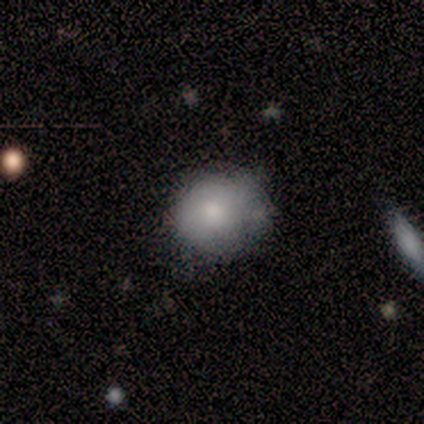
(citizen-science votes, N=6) Q: Smooth or featured?
A: smooth (83%); runner-up: featured or disk (17%)
Q: How rounded?
A: round (60%); runner-up: in between (40%)
Q: Merging?
A: none (50%); tied with: minor disturbance (50%)